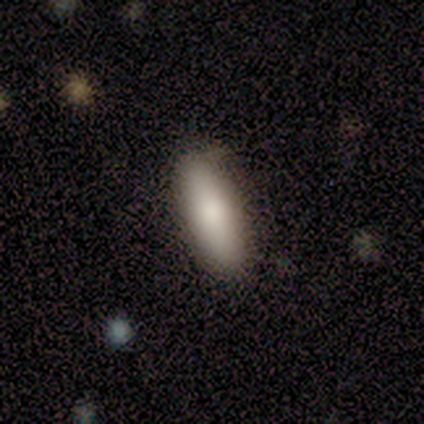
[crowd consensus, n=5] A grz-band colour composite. It shows a smooth galaxy with no disk features (80%) that is cigar-shaped (100%). Merging: none (75%).